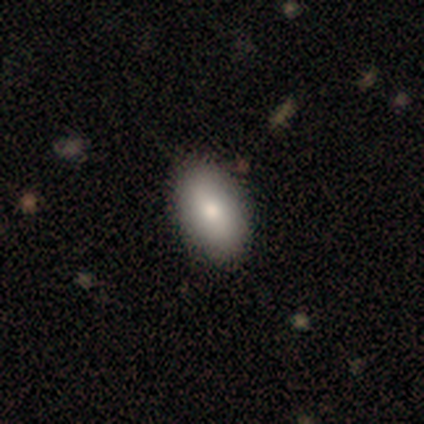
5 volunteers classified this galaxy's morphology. Smooth or featured?
  - smooth: 80% *
  - featured or disk: 20%
  - star or artifact: 0%
How rounded?
  - in between: 100% *
  - round: 0%
  - cigar-shaped: 0%
Merging?
  - none: 60% *
  - minor disturbance: 40%
  - major disturbance: 0%
  - merger: 0%